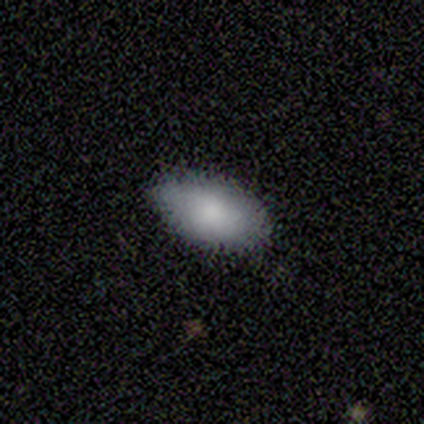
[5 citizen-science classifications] This is clearly a smooth galaxy (100%). How rounded: clearly in between (100%). Merging: clearly none (80%).